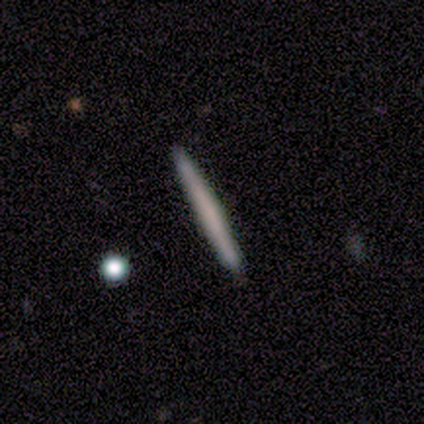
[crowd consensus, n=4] This is clearly a smooth galaxy (100%). How rounded: clearly cigar-shaped (100%). Merging: clearly none (100%).